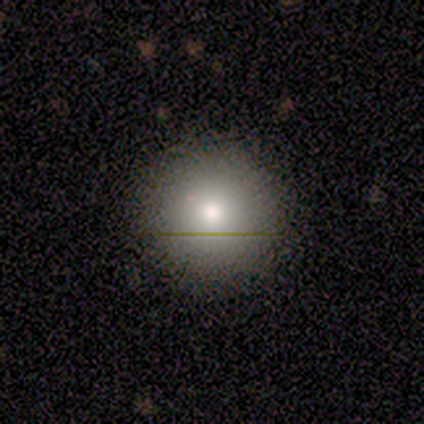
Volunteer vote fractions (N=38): A smooth galaxy with no disk features (76%) that is round (90%). Merging: none (91%).